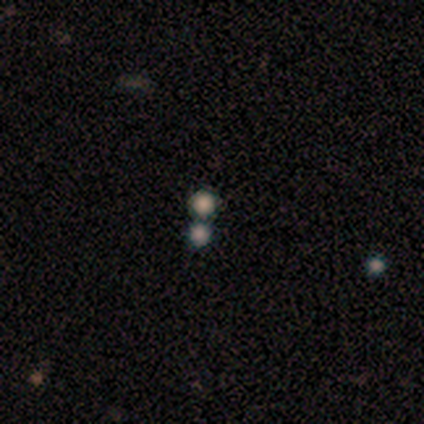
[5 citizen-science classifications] Smooth or featured?
  - star or artifact: 60% *
  - smooth: 40%
  - featured or disk: 0%